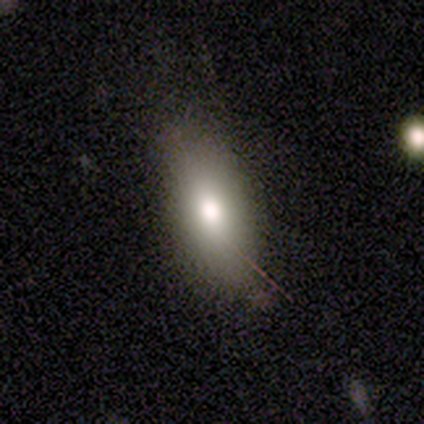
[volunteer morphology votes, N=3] Volunteers were most divided on "merging": none: 67%, minor disturbance: 33%, major disturbance: 0%, merger: 0%. More confident: smooth or featured — smooth (100%); how rounded — in between (100%).